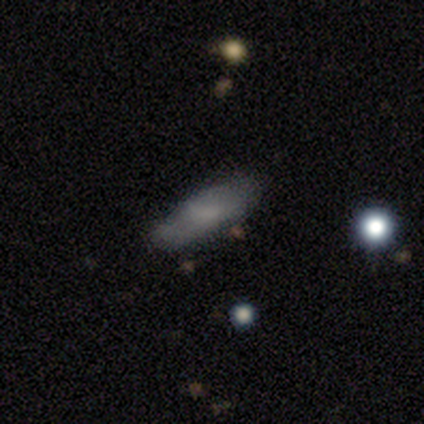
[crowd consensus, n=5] Smooth or featured?
  - smooth: 60% *
  - featured or disk: 40%
  - star or artifact: 0%
How rounded?
  - in between: 100% *
  - round: 0%
  - cigar-shaped: 0%
Merging?
  - minor disturbance: 80% *
  - none: 20%
  - major disturbance: 0%
  - merger: 0%